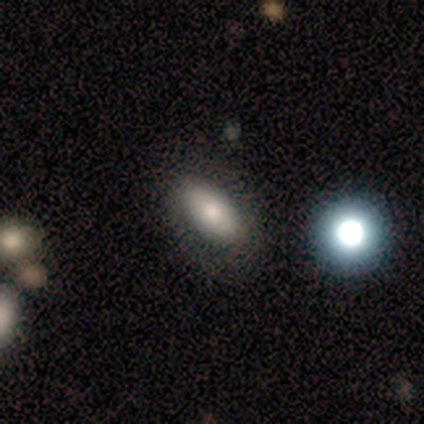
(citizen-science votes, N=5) smooth_or_featured: smooth (p=0.60) [alt: featured or disk p=0.20]
how_rounded: in between (p=1.00)
merging: none (p=0.50) [tied with: minor disturbance p=0.50]